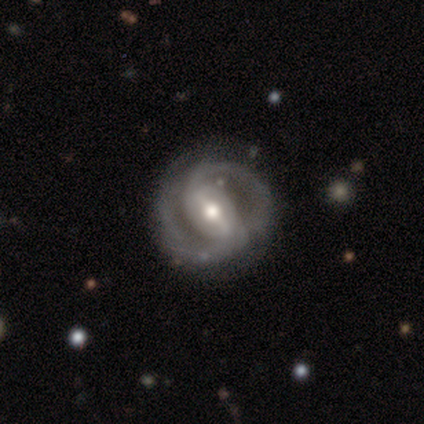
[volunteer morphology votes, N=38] Overall: featured or disk (89%). Edge-on disk: no (100%). Bar: strong (65%; weak 32%). Spiral arms: yes (91%). Spiral arm count: 2 (100%). Spiral winding: medium (52%; tight 39%). Bulge size: moderate (74%). Merging: none (84%).